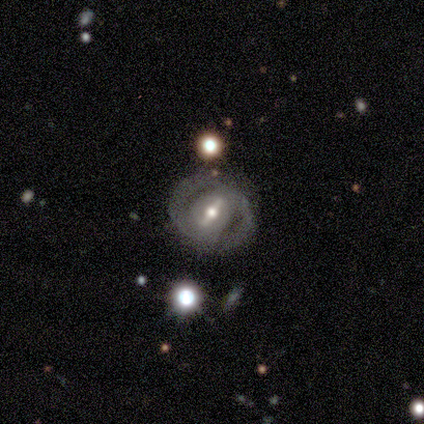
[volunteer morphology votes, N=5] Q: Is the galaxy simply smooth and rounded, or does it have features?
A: featured or disk — 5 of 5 (100%).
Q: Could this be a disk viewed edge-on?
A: no — 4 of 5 (80%).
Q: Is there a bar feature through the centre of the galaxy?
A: strong — 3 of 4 (75%).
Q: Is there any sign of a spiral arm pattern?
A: yes — 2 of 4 (50%, tied with no).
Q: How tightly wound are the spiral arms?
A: medium — 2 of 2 (100%).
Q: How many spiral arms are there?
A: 2 — 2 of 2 (100%).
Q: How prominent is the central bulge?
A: moderate — 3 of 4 (75%).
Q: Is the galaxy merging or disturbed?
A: none — 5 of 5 (100%).